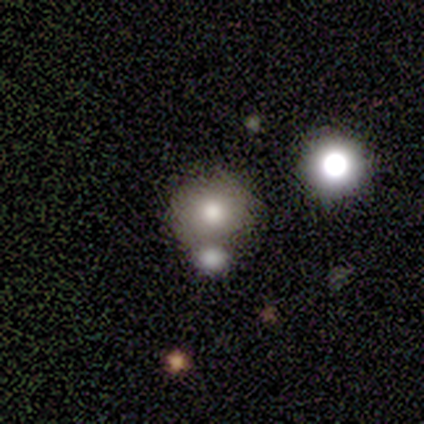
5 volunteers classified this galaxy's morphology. This is clearly a smooth galaxy (100%). How rounded: likely round (60%). Merging: likely merger (60%).